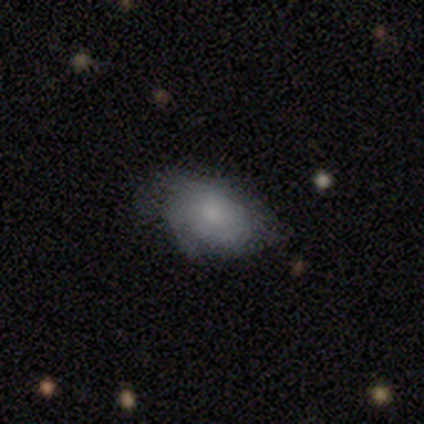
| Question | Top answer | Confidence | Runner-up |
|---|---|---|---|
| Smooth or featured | featured or disk | 60% | smooth (40%) |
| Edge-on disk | no | 100% | — |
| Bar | no | 67% | weak (33%) |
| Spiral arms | no | 67% | yes (33%) |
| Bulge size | small | 67% | moderate (33%) |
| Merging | minor disturbance | 80% | none (20%) |